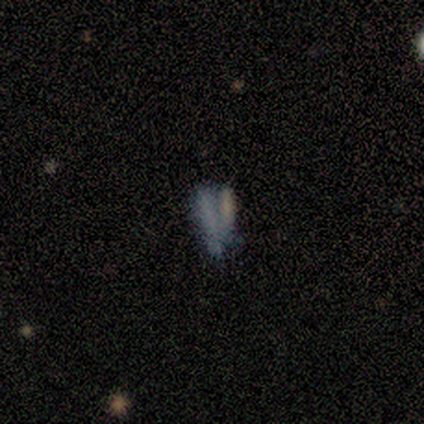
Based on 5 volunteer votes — Morphology: type=smooth (60%); roundness=in between (67%); merging=merger (75%).